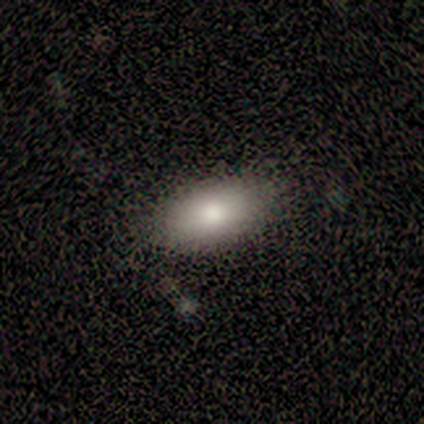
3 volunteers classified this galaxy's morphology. A smooth galaxy with no disk features (33%, tied with featured or disk and star or artifact) that is in between round and cigar-shaped (100%). Merging: none (100%).